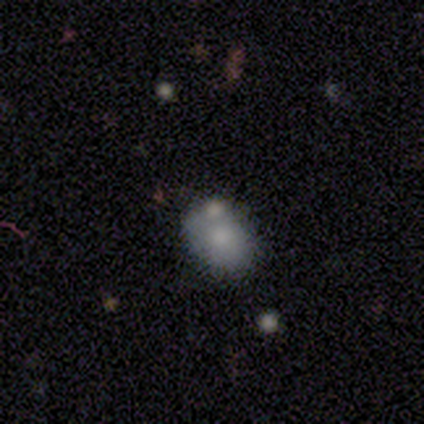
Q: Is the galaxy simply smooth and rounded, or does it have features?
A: smooth — 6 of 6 (100%).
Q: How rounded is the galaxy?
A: in between — 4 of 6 (67%).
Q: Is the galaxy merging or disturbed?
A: none — 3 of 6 (50%).